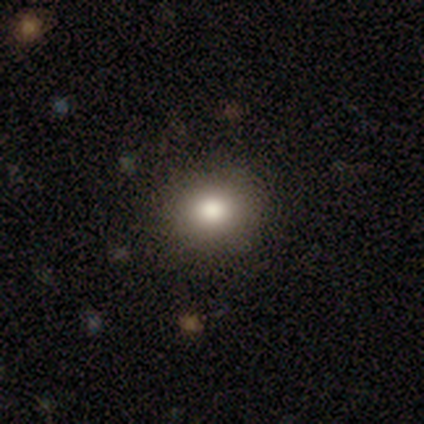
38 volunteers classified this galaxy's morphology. Smooth or featured?
  - smooth: 92% *
  - star or artifact: 8%
  - featured or disk: 0%
How rounded?
  - round: 86% *
  - in between: 14%
  - cigar-shaped: 0%
Merging?
  - none: 91% *
  - minor disturbance: 6%
  - merger: 3%
  - major disturbance: 0%